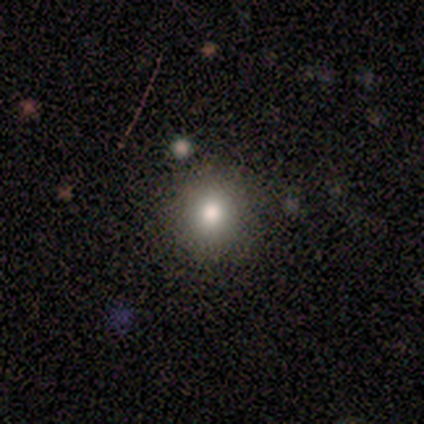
smooth-or-featured: smooth: 60% | star or artifact: 40% | featured or disk: 0%
  how-rounded: round: 100% | in between: 0% | cigar-shaped: 0%
  merging: none: 67% | merger: 33% | minor disturbance: 0% | major disturbance: 0%